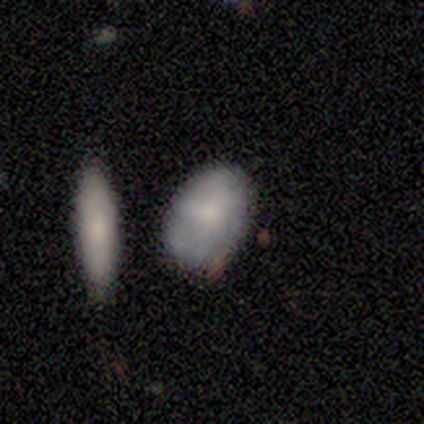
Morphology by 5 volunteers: Q: Smooth or featured?
A: smooth (80%); runner-up: featured or disk (20%)
Q: How rounded?
A: in between (75%); runner-up: round (25%)
Q: Merging?
A: none (40%); tied with: merger (40%)